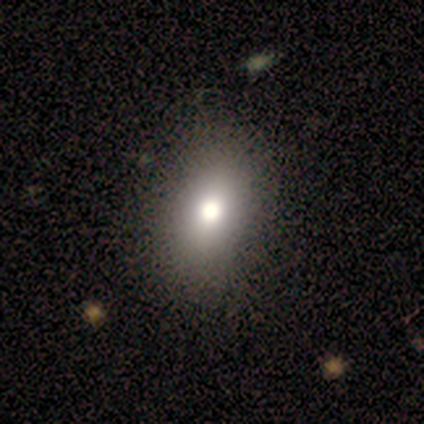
Morphology: type=smooth (100%); roundness=in between (100%); merging=none (80%).